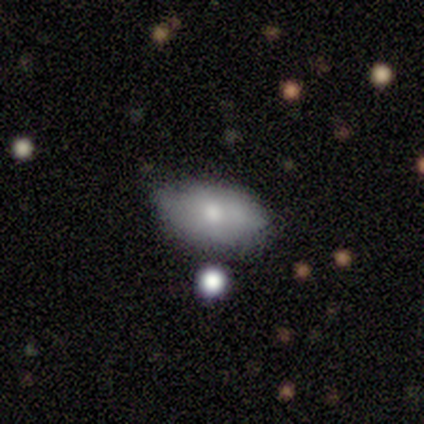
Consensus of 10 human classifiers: Smooth or featured? smooth (100%)
How rounded? in between (100%)
Merging? none (60%)